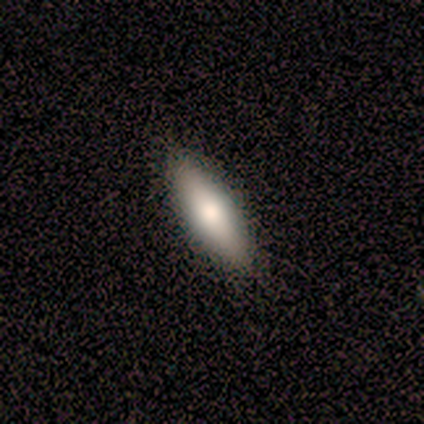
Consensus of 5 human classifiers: A smooth galaxy with no disk features (100%) that is in between round and cigar-shaped (60%).

Vote fractions:
- Smooth or featured? smooth: 100% / featured or disk: 0% / star or artifact: 0%
- How rounded? in between: 60% / cigar-shaped: 40% / round: 0%
- Merging? none: 80% / minor disturbance: 20% / major disturbance: 0% / merger: 0%